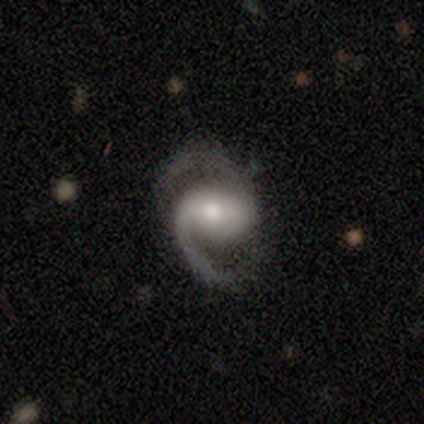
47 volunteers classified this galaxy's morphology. Volunteers were most divided on "bar": weak: 41%, strong: 34%, no: 25%. More confident: spiral arms — yes (100%); edge-on disk — no (98%); smooth or featured — featured or disk (96%); spiral arm count — 2 (95%); merging — none (78%); spiral winding — medium (66%); bulge size — moderate (59%).